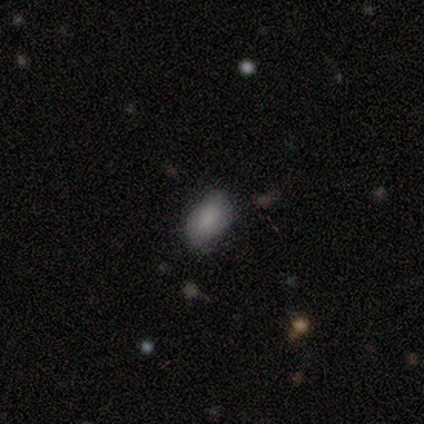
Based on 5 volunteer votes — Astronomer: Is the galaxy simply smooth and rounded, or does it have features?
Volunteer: smooth — 60%.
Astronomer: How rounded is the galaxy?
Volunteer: in between — 100%.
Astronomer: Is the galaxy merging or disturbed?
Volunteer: none — 100%.